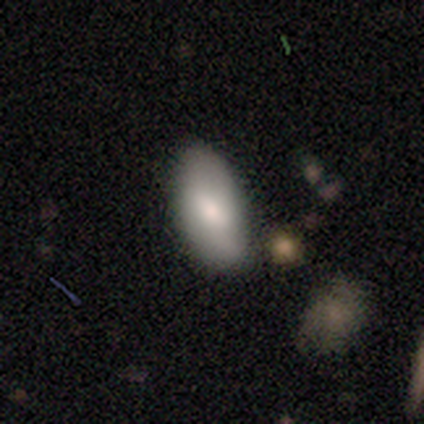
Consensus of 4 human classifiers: smooth-or-featured: smooth: 50% (tied) | featured or disk: 50% (tied) | star or artifact: 0%
  how-rounded: in between: 100% | round: 0% | cigar-shaped: 0%
  merging: none: 75% | merger: 25% | minor disturbance: 0% | major disturbance: 0%